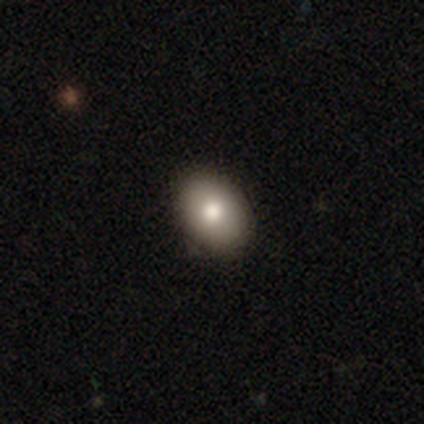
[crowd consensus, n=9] A smooth galaxy with no disk features (78%) that is in between round and cigar-shaped (100%).

Vote fractions:
- Smooth or featured? smooth: 78% / featured or disk: 11% / star or artifact: 11%
- How rounded? in between: 100% / round: 0% / cigar-shaped: 0%
- Merging? none: 88% / minor disturbance: 12% / major disturbance: 0% / merger: 0%